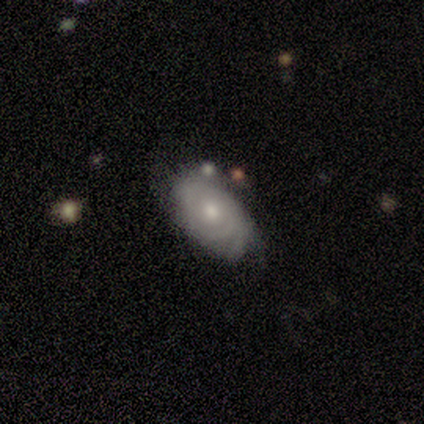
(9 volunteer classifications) Volunteers were most divided on "bulge size": small: 60%, moderate: 40%, dominant: 0%, large: 0%, none: 0%. More confident: edge-on disk — no (100%); spiral arms — yes (100%); bar — no (80%); spiral winding — tight (80%); merging — none (62%); spiral arm count — can't tell (60%); smooth or featured — featured or disk (56%).